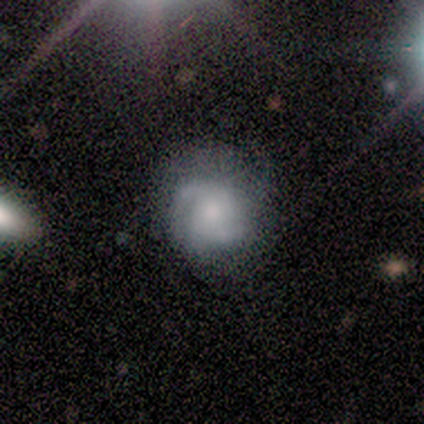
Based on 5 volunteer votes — Q: Smooth or featured?
A: smooth (40%); tied with: featured or disk (40%)
Q: How rounded?
A: round (50%); tied with: in between (50%)
Q: Merging?
A: none (75%); runner-up: minor disturbance (25%)